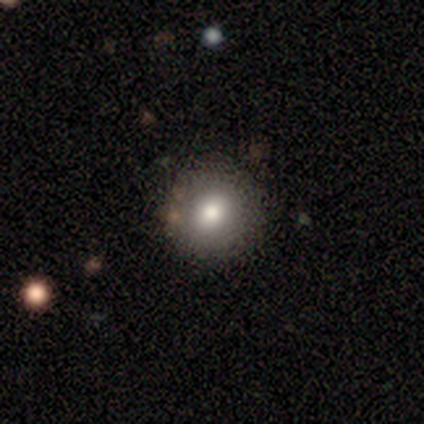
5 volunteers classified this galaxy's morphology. A smooth galaxy with no disk features (100%) that is round (80%). Merging: none (80%).